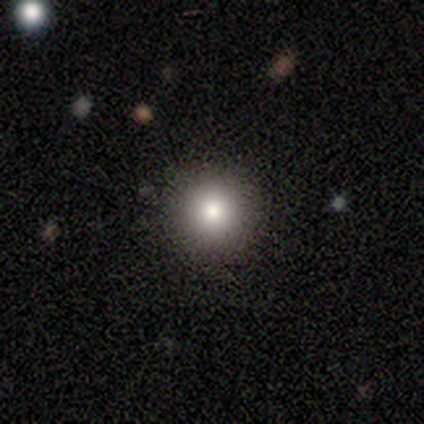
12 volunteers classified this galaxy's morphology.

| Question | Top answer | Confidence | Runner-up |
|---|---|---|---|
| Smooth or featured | smooth | 67% | star or artifact (25%) |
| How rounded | round | 100% | — |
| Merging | none | 100% | — |